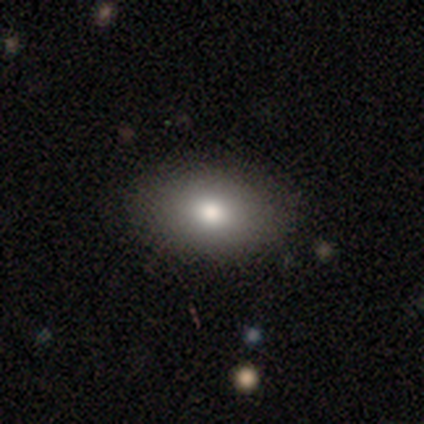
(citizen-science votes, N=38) Q: Smooth or featured?
A: smooth (87%); runner-up: featured or disk (11%)
Q: How rounded?
A: in between (91%); runner-up: round (9%)
Q: Merging?
A: none (86%); runner-up: minor disturbance (14%)